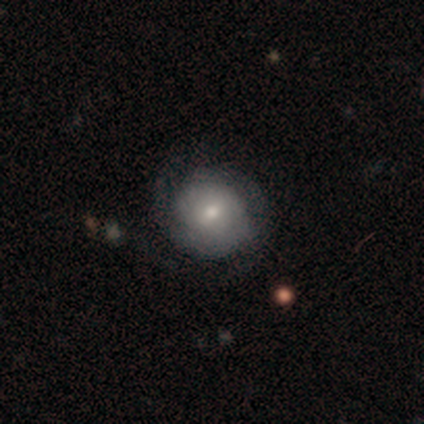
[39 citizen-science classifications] smooth 46% (tied), featured or disk 46% (tied), star or artifact 8%. Down the decision tree: how rounded — round (83%); merging — none (47%).